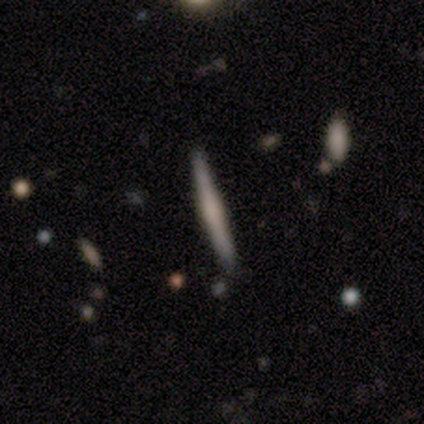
Smooth or featured: smooth — 40% (tied with featured or disk — 40%)
How rounded: cigar-shaped — 100%
Merging: none — 75% (minor disturbance — 25%)